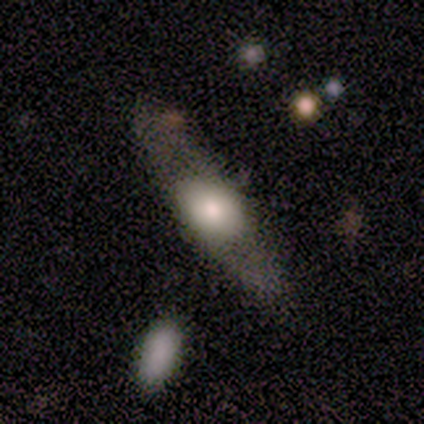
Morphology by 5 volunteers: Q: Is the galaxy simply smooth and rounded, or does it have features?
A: smooth — 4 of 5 (80%).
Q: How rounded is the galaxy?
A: cigar-shaped — 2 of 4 (50%).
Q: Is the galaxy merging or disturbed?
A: none — 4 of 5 (80%).